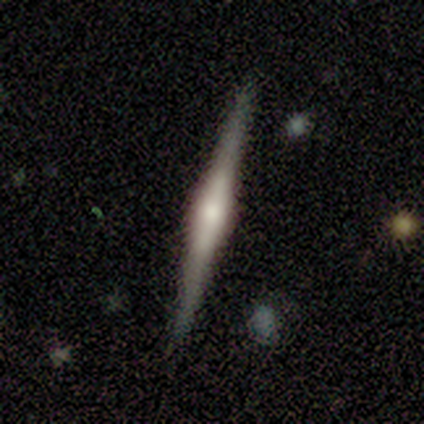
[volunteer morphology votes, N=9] This is clearly a featured or disk galaxy (89%). It is clearly viewed edge-on (100%). Edge-on bulge: clearly rounded (88%). Merging: clearly none (89%).